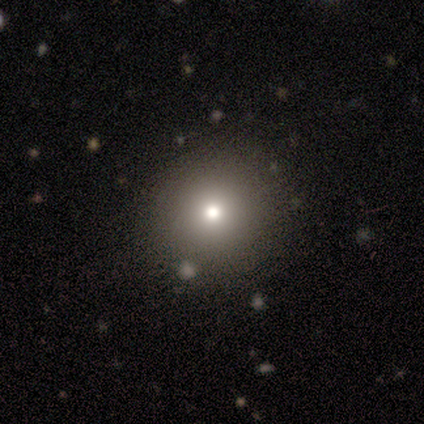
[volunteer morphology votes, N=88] type=smooth (64%); roundness=round (95%); merging=none (91%).